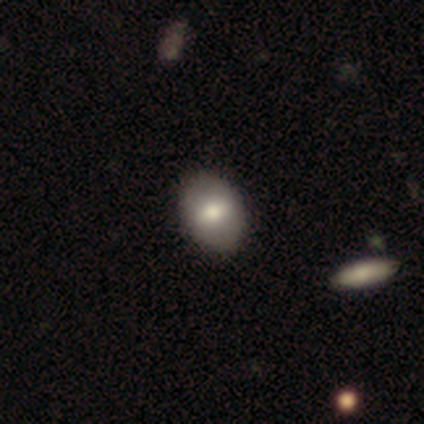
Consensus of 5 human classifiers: Smooth or featured? 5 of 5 (100%) said smooth. How rounded? 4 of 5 (80%) said in between. Merging? 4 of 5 (80%) said none.